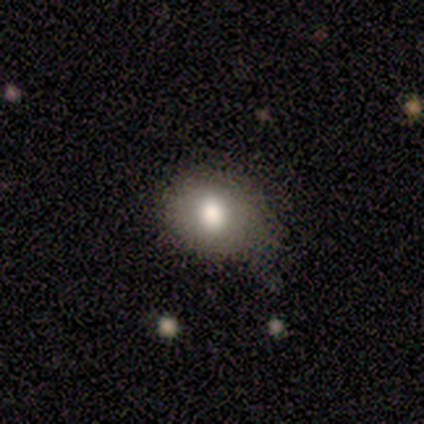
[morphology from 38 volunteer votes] This appears to be a smooth galaxy with no disk features (82%) that is round (77%). Merging: none (69%).